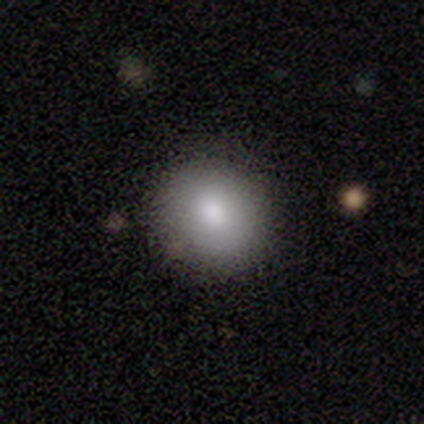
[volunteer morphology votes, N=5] Smooth or featured?
  - smooth: 100% *
  - featured or disk: 0%
  - star or artifact: 0%
How rounded?
  - round: 100% *
  - in between: 0%
  - cigar-shaped: 0%
Merging?
  - none: 60% *
  - minor disturbance: 40%
  - major disturbance: 0%
  - merger: 0%